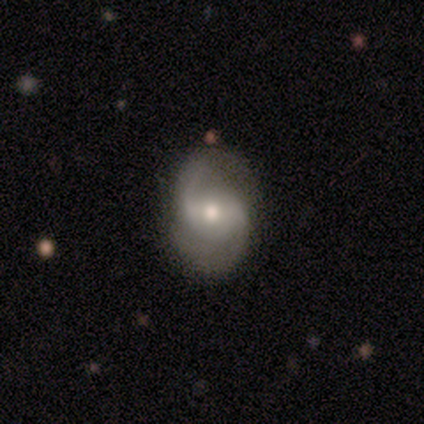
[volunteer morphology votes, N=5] This appears to be a featured or disk galaxy (80%) with a weak bar (75%), 2 (100%) loose (67%) spiral arms (75%) and a moderate central bulge (75%). Merging: none (100%).